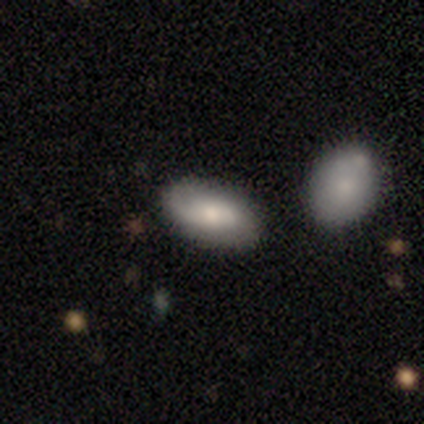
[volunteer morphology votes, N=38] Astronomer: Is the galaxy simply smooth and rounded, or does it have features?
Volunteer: smooth — 53% (runner-up: featured or disk, 39%).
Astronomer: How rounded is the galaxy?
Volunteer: in between — 100%.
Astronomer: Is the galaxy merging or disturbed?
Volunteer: none — 69%.